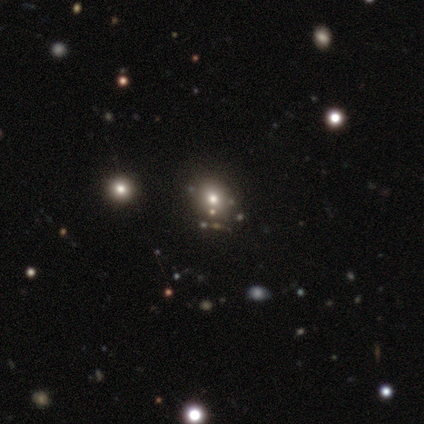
smooth_or_featured: smooth (p=0.40) [tied with: featured or disk p=0.40]
how_rounded: round (p=1.00)
merging: none (p=0.75) [alt: merger p=0.25]